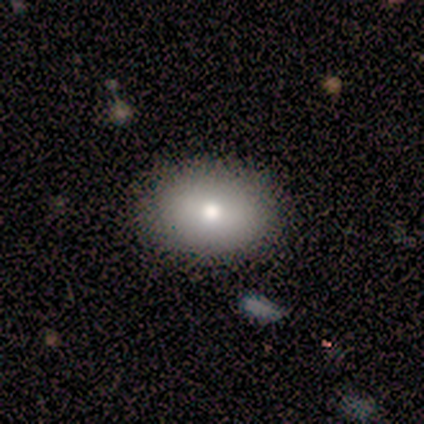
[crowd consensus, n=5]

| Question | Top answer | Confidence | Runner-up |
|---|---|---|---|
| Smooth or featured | smooth | 60% | featured or disk (40%) |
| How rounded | in between | 67% | round (33%) |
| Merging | none | 100% | — |